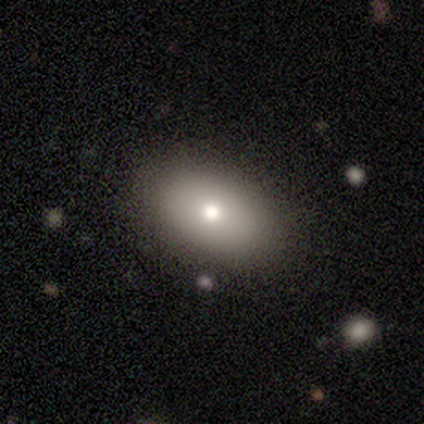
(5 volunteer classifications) Smooth or featured? smooth (80%)
How rounded? in between (100%)
Merging? none (80%)